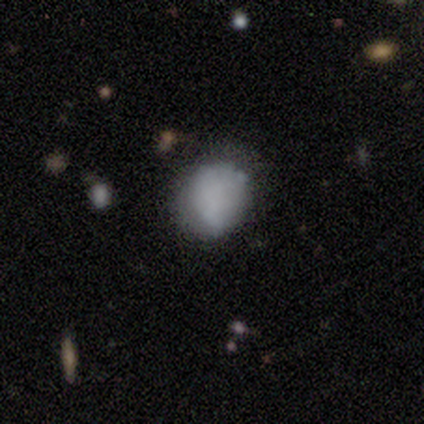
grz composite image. It shows a smooth galaxy with no disk features (60%) that is round (67%). Merging: none (75%).